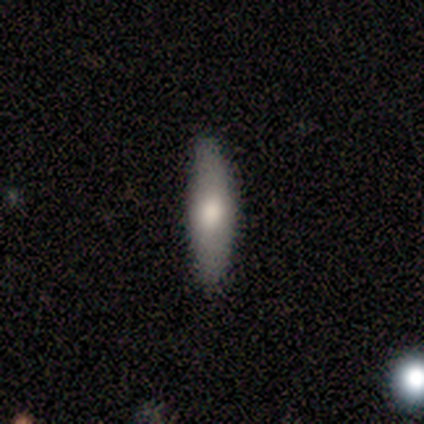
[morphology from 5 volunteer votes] type=featured or disk (60%); edge-on=no (67%); bar=no (100%); spiral arms=no (100%); bulge=large (50%, tied with moderate); merging=none (100%).